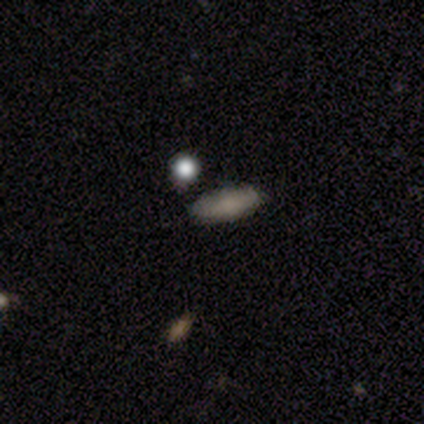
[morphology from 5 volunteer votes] This appears to be a smooth galaxy with no disk features (40%, tied with star or artifact) that is in between round and cigar-shaped (50%, tied with cigar-shaped). Merging: none (100%).